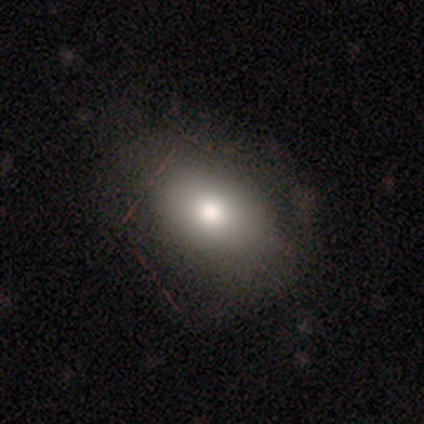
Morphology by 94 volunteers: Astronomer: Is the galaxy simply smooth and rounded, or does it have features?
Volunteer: smooth — 67%.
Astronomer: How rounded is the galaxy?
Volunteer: in between — 70%.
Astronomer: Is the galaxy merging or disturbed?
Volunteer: none — 73%.